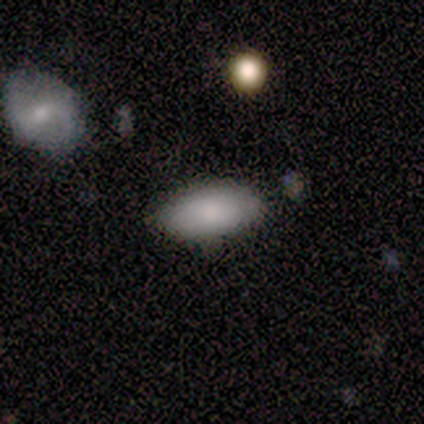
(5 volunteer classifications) Smooth or featured? 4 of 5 (80%) said smooth. How rounded? 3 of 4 (75%) said in between. Merging? 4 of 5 (80%) said none.